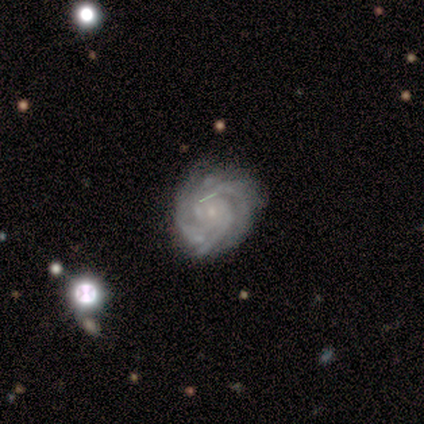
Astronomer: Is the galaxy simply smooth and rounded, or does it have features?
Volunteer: featured or disk — 88%.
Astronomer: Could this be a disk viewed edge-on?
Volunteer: no — 100%.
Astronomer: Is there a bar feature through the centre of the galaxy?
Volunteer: no — 87%.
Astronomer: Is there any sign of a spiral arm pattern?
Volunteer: yes — 97%.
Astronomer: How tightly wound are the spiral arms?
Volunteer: tight — 70%.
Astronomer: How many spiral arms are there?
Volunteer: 4 — 34% (runner-up: 3, 28%).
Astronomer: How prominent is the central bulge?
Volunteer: small — 77%.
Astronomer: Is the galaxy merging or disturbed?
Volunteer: none — 68%.